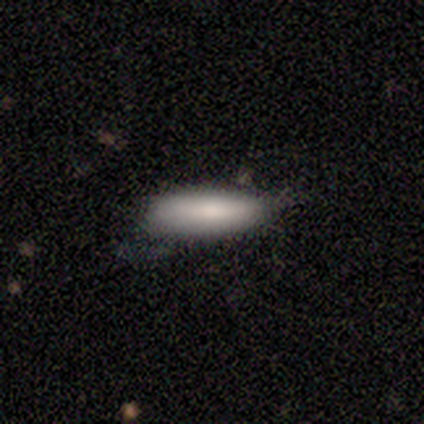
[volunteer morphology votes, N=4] Smooth or featured: smooth — 75% (star or artifact — 25%)
How rounded: in between — 67% (cigar-shaped — 33%)
Merging: minor disturbance — 67% (major disturbance — 33%)